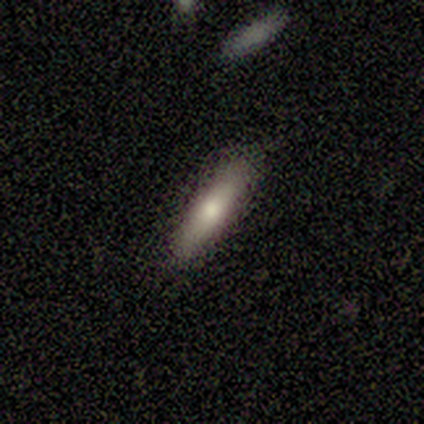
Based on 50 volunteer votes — A smooth galaxy with no disk features (80%) that is cigar-shaped (82%).

Vote fractions:
- Smooth or featured? smooth: 80% / featured or disk: 14% / star or artifact: 6%
- How rounded? cigar-shaped: 82% / in between: 18% / round: 0%
- Merging? none: 87% / minor disturbance: 11% / merger: 2% / major disturbance: 0%